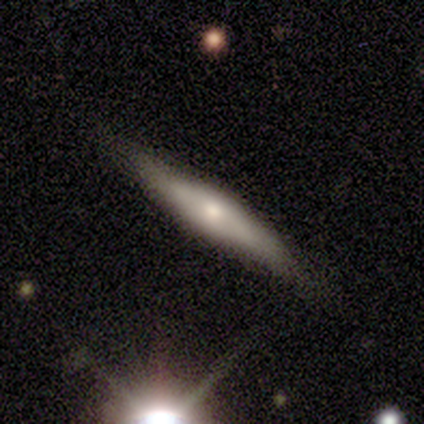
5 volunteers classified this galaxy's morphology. Volunteers were most divided on "edge-on bulge": rounded: 75%, boxy: 25%, none: 0%. More confident: edge-on disk — yes (100%); smooth or featured — featured or disk (80%); merging — none (75%).